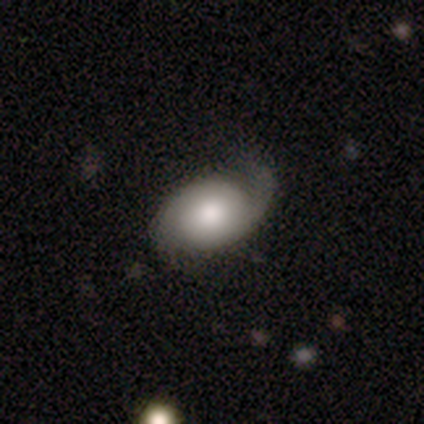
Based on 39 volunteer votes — Smooth or featured? featured or disk (62%)
Edge-on disk? no (96%)
Bar? no (74%)
Spiral arms? yes (83%)
Spiral winding? tight (47%)
Spiral arm count? 1 (53%)
Bulge size? moderate (61%)
Merging? none (47%)